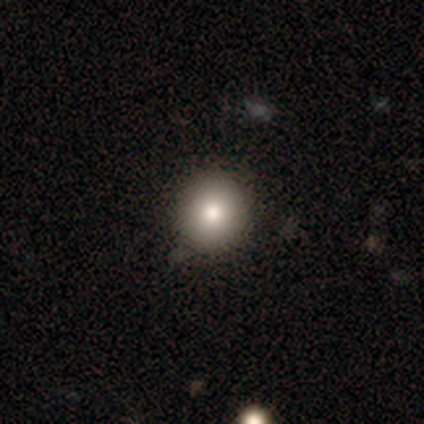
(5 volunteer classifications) smooth 80%, featured or disk 20%, star or artifact 0%. Down the decision tree: how rounded — round (100%); merging — none (100%).